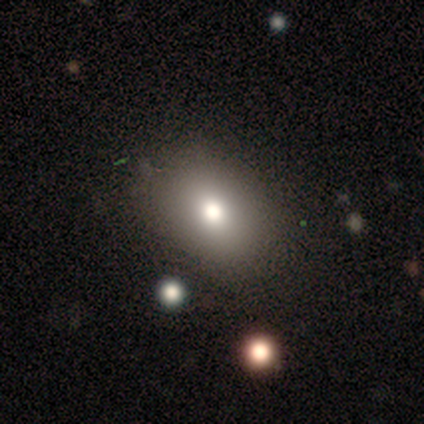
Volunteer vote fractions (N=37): Overall: smooth (68%). How rounded: in between (60%; round 40%). Merging: none (81%).